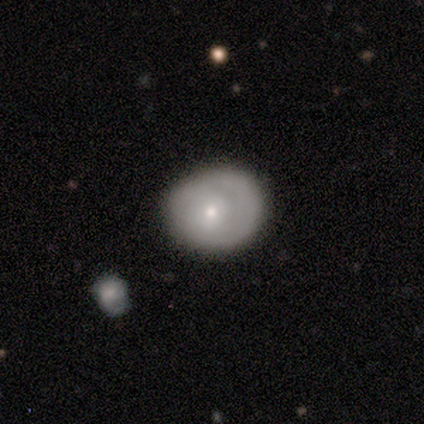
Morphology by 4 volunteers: smooth-or-featured: featured or disk: 75% | smooth: 25% | star or artifact: 0%
  disk-edge-on: no: 100% | yes: 0%
    bar: no: 100% | strong: 0% | weak: 0%
    has-spiral-arms: yes: 67% | no: 33%
      spiral-winding: tight: 100% | medium: 0% | loose: 0%
      spiral-arm-count: 2: 50% (tied) | can't tell: 50% (tied) | 1: 0% | 3: 0% | 4: 0% | more than 4: 0%
    bulge-size: moderate: 67% | large: 33% | dominant: 0% | small: 0% | none: 0%
  merging: none: 75% | minor disturbance: 25% | major disturbance: 0% | merger: 0%